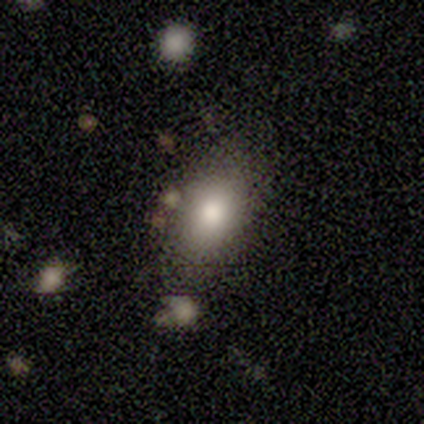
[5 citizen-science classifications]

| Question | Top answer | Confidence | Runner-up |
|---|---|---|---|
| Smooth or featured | smooth | 100% | — |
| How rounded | in between | 60% | round (40%) |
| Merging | none | 80% | minor disturbance (20%) |